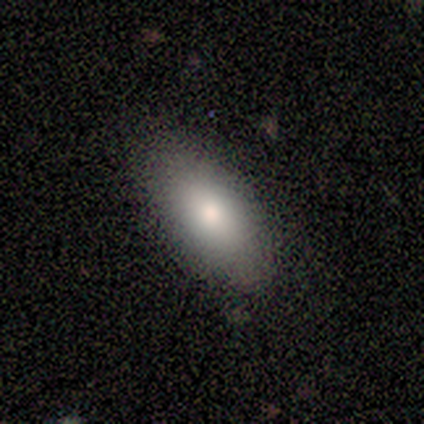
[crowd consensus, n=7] A smooth galaxy with no disk features (86%) that is in between round and cigar-shaped (100%). Merging: none (83%).